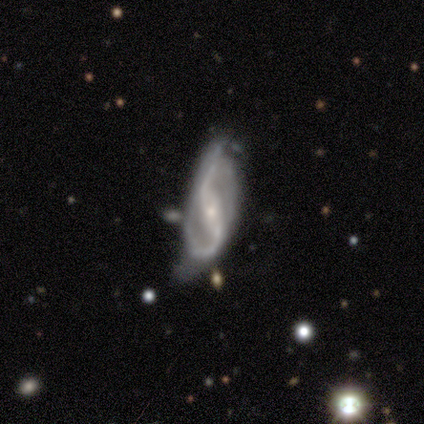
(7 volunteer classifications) This is clearly a featured or disk galaxy (100%). It is clearly not viewed edge-on (100%). Bar: marginally strong (43%, tied with weak). Spiral arm pattern: clearly yes (100%). Spiral arm count: clearly 2 (100%). Spiral winding: likely loose (71%). Central bulge: clearly small (100%). Merging: marginally minor disturbance (43%).